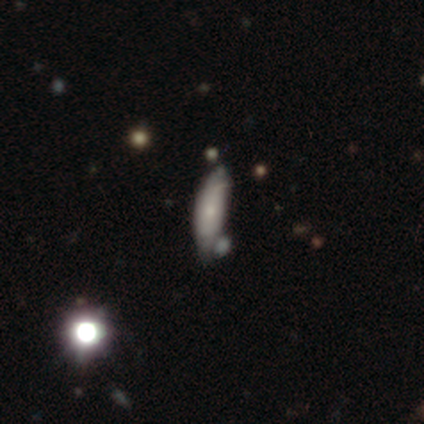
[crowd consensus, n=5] smooth_or_featured: smooth (p=0.60) [alt: featured or disk p=0.40]
how_rounded: cigar-shaped (p=0.67) [alt: in between p=0.33]
merging: none (p=0.60) [alt: major disturbance p=0.20]